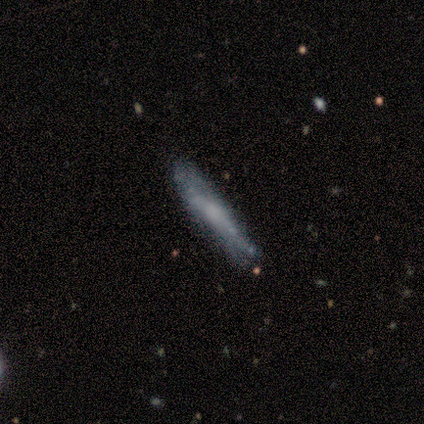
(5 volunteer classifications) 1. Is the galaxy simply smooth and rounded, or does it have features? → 80% featured or disk, 20% smooth, 0% star or artifact.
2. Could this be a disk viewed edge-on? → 75% yes, 25% no.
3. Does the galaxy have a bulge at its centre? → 100% none, 0% boxy, 0% rounded.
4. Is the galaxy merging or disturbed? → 60% none, 40% minor disturbance, 0% major disturbance, 0% merger.